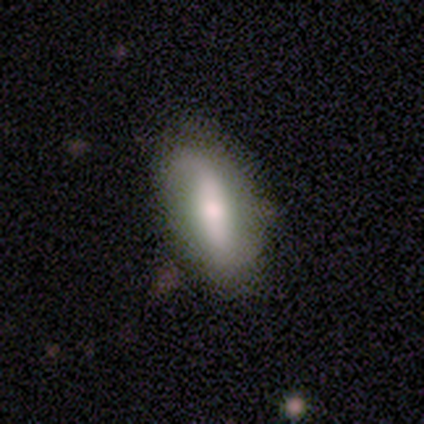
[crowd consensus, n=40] featured or disk 52%, smooth 45%, star or artifact 2%. Down the decision tree: edge-on disk — no (86%); bar — strong (44%); spiral arms — yes (67%); spiral arm count — 2 (67%); spiral winding — loose (92%); bulge size — small (50%); merging — none (72%).